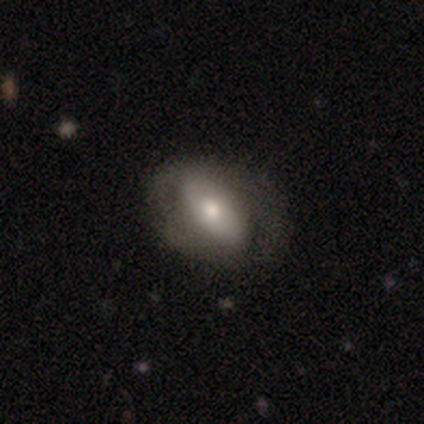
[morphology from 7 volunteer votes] Smooth or featured: featured or disk — 57% (smooth — 29%)
Edge-on disk: no — 100%
Bar: strong — 50% (tied with no — 50%)
Spiral arms: no — 75% (yes — 25%)
Bulge size: moderate — 100%
Merging: none — 83% (minor disturbance — 17%)